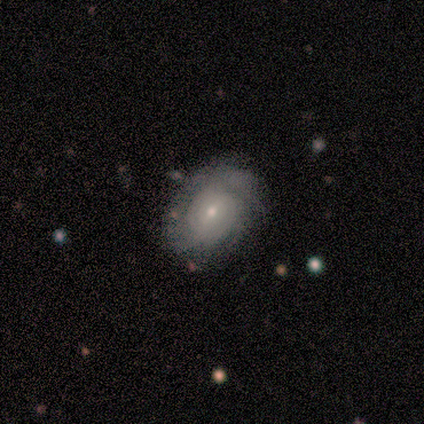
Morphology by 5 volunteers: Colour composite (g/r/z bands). It shows a featured or disk galaxy (100%) with no bar (75%), tight (75%) spiral arms (100%) and a small central bulge (75%). Merging: none (100%).